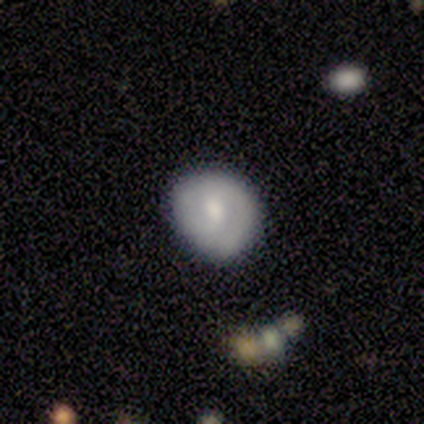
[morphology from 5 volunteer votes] Q: Smooth or featured?
A: featured or disk (60%); runner-up: smooth (40%)
Q: Edge-on disk?
A: no (100%)
Q: Bar?
A: weak (67%); runner-up: no (33%)
Q: Spiral arms?
A: yes (67%); runner-up: no (33%)
Q: Spiral winding?
A: tight (50%); tied with: medium (50%)
Q: Spiral arm count?
A: 2 (100%)
Q: Bulge size?
A: small (67%); runner-up: moderate (33%)
Q: Merging?
A: none (80%); runner-up: major disturbance (20%)